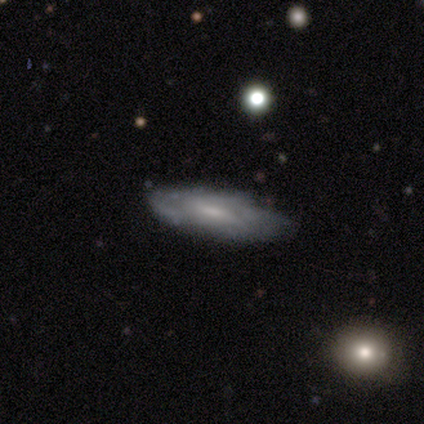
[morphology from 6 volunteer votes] A featured or disk galaxy (50%) with a weak bar (67%), 2 (33%, tied with 3 and can't tell) medium (67%) spiral arms (100%) and a moderate central bulge (100%).

Vote fractions:
- Smooth or featured? featured or disk: 50% / smooth: 33% / star or artifact: 17%
- Edge-on disk? no: 100% / yes: 0%
- Bar? weak: 67% / strong: 33% / no: 0%
- Spiral arms? yes: 100% / no: 0%
- Spiral winding? medium: 67% / tight: 33% / loose: 0%
- Spiral arm count? 2: 33% (tied) / 3: 33% (tied) / can't tell: 33% (tied) / 1: 0% / 4: 0% / more than 4: 0%
- Bulge size? moderate: 100% / dominant: 0% / large: 0% / small: 0% / none: 0%
- Merging? none: 80% / minor disturbance: 20% / major disturbance: 0% / merger: 0%